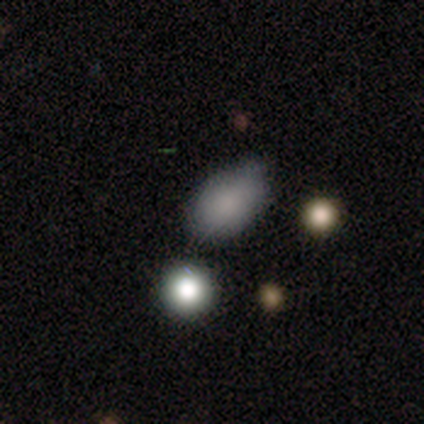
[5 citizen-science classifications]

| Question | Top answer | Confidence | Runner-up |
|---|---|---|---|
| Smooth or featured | smooth | 100% | — |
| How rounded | in between | 100% | — |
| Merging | none | 40% | tied: minor disturbance (40%) |